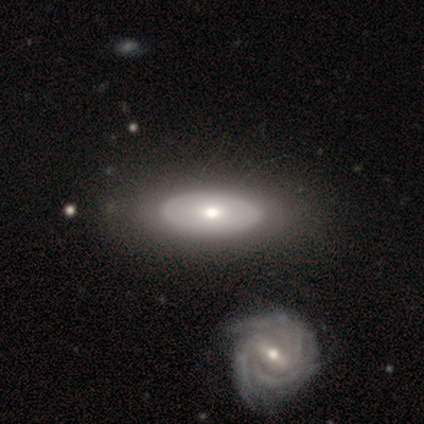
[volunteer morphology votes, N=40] This appears to be a featured or disk galaxy (57%) with no bar (86%), no spiral arms (67%) and a moderate central bulge (76%). Merging: none (82%).